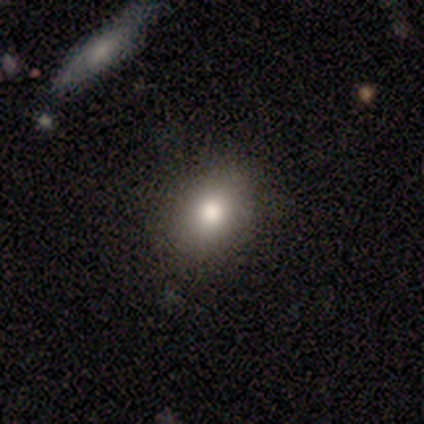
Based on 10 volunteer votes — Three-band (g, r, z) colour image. It shows a smooth galaxy with no disk features (100%) that is in between round and cigar-shaped (60%). Merging: none (90%).